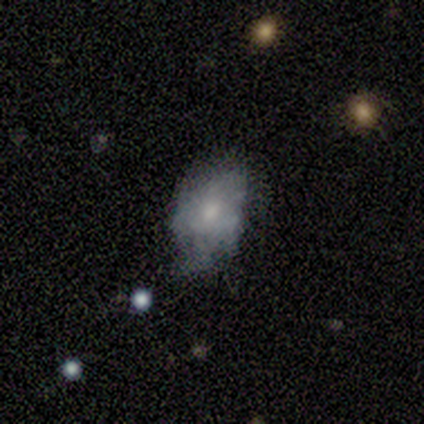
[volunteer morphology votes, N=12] Overall: smooth (67%; featured or disk 33%). How rounded: in between (88%). Merging: minor disturbance (75%).